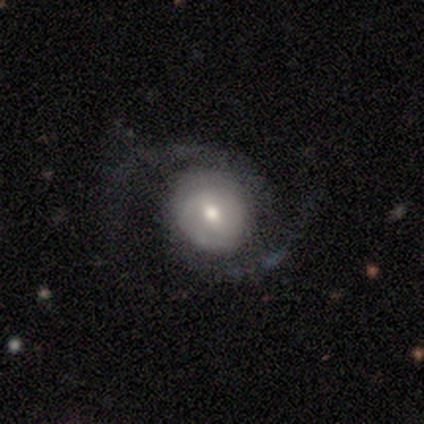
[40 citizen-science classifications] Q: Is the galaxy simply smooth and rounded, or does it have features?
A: featured or disk — 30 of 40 (75%).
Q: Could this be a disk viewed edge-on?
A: no — 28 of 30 (93%).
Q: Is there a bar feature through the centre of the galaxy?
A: no — 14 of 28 (50%).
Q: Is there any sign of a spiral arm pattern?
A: yes — 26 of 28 (93%).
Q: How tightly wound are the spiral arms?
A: medium — 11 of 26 (42%, tied with loose).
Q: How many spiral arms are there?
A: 2 — 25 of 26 (96%).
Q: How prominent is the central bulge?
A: moderate — 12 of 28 (43%).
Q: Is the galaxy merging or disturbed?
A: none — 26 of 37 (70%).